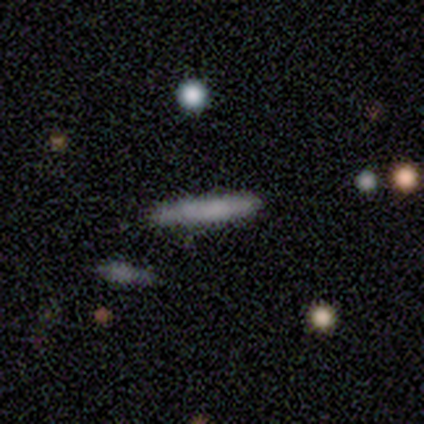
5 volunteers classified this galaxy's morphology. A smooth galaxy with no disk features (100%) that is cigar-shaped (100%). Merging: none (100%).